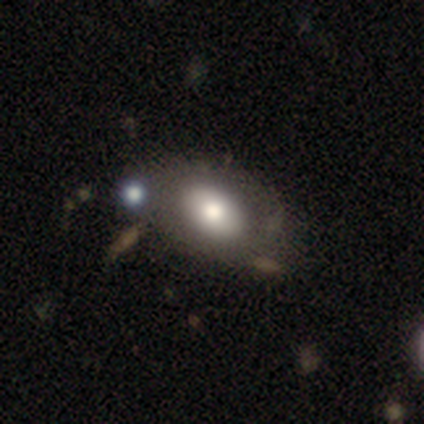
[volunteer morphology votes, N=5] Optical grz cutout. It shows a smooth galaxy with no disk features (40%, tied with featured or disk) that is in between round and cigar-shaped (100%). Merging: minor disturbance (50%, tied with merger).